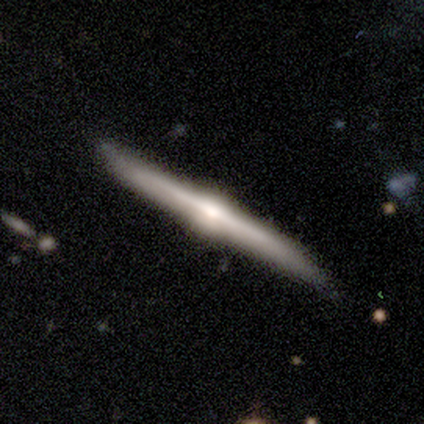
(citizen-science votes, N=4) A featured or disk galaxy (100%) viewed edge-on (100%) with a rounded central bulge (100%). Merging: none (100%).